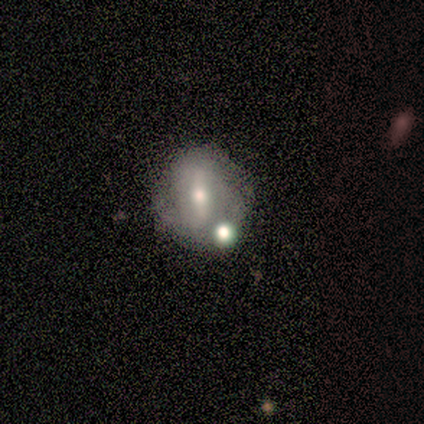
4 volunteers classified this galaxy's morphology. This is likely a featured or disk galaxy (75%). It is clearly not viewed edge-on (100%). Bar: clearly strong (100%). Spiral arm pattern: clearly yes (100%). Spiral arm count: likely can't tell (67%). Spiral winding: marginally tight (33%, tied with medium and loose). Central bulge: likely moderate (67%). Merging: likely minor disturbance (75%).